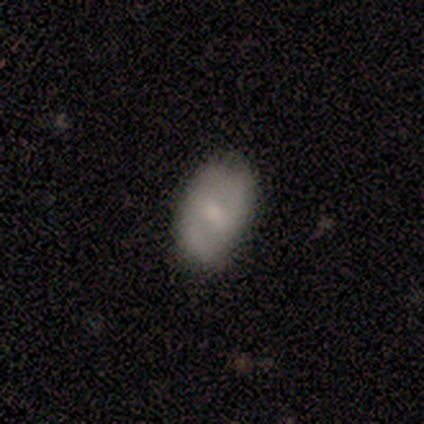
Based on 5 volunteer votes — This appears to be a featured or disk galaxy (80%) with a weak bar (50%, tied with no), no spiral arms (75%) and a moderate central bulge (50%, tied with small). Merging: minor disturbance (60%).